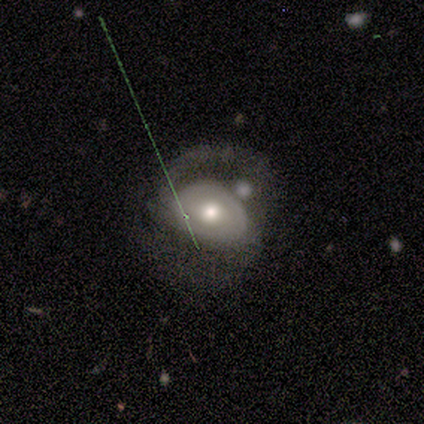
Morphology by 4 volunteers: smooth 50% (tied), featured or disk 50% (tied), star or artifact 0%. Down the decision tree: how rounded — in between (100%); merging — major disturbance (75%).